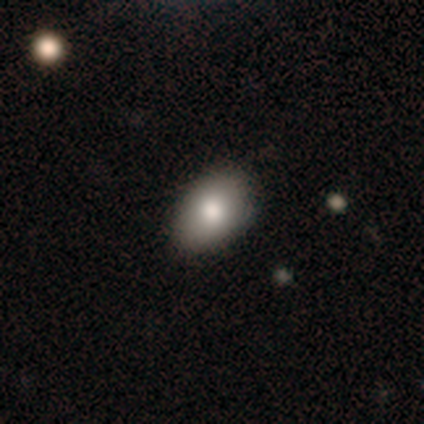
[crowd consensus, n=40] Smooth or featured? 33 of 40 (82%) said smooth. How rounded? 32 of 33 (97%) said in between. Merging? 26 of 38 (68%) said none.